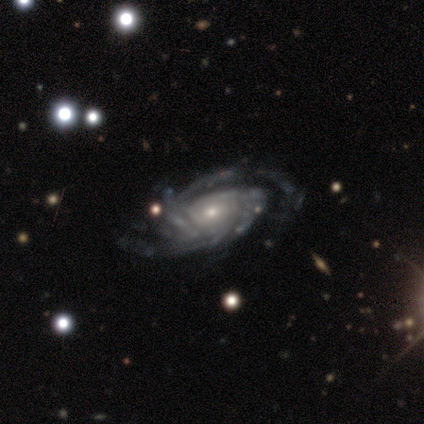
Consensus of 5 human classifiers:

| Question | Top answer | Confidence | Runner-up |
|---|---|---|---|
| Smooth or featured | featured or disk | 100% | — |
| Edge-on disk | no | 100% | — |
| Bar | no | 80% | weak (20%) |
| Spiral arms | yes | 100% | — |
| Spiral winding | tight | 60% | medium (20%) |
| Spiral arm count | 2 | 60% | 3 (20%) |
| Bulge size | small | 100% | — |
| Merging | none | 60% | minor disturbance (40%) |